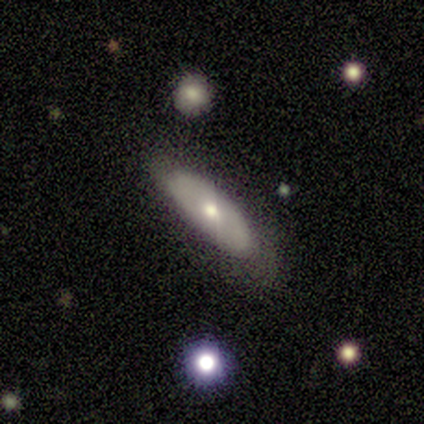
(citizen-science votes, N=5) Smooth or featured: smooth — 60% (featured or disk — 40%)
How rounded: in between — 100%
Merging: none — 100%